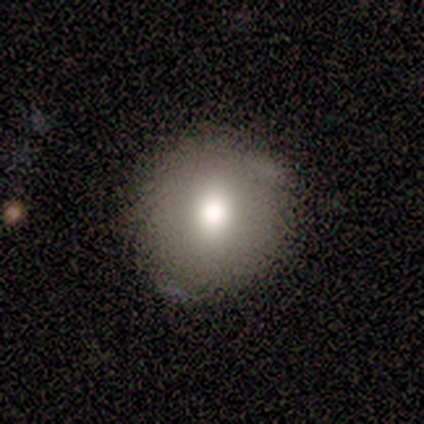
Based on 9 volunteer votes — This is clearly a smooth galaxy (89%). How rounded: clearly round (88%). Merging: clearly none (89%).